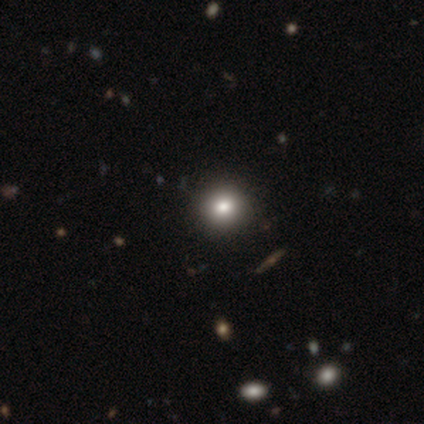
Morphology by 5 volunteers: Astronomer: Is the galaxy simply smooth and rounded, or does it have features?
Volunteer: smooth — 100%.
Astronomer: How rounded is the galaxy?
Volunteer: round — 100%.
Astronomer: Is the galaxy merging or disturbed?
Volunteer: none — 100%.